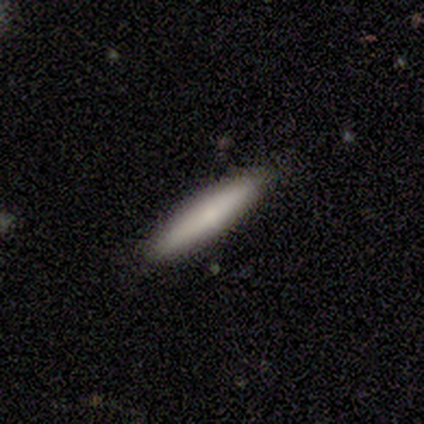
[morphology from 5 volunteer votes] Volunteers were most divided on "smooth or featured": smooth: 80%, featured or disk: 20%, star or artifact: 0%. More confident: how rounded — cigar-shaped (100%); merging — none (80%).